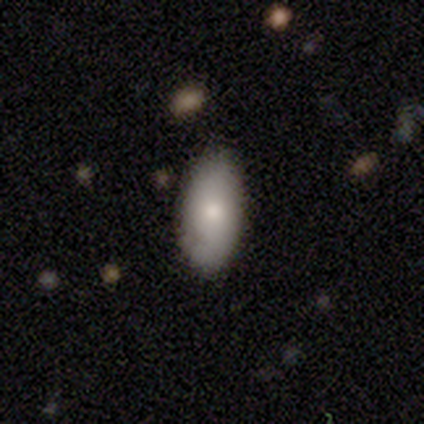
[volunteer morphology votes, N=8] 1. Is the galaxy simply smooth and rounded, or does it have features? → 62% smooth, 25% featured or disk, 12% star or artifact.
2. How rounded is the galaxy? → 80% in between, 20% cigar-shaped, 0% round.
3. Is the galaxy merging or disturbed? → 100% none, 0% minor disturbance, 0% major disturbance, 0% merger.